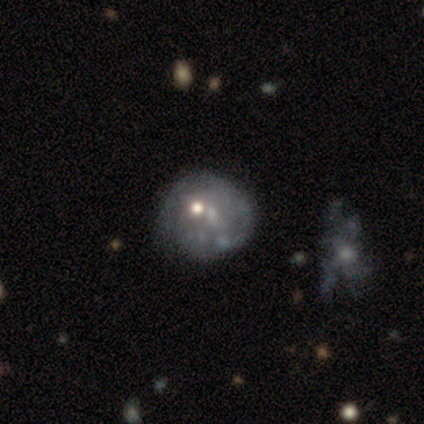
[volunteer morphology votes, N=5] Smooth or featured? 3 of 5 (60%) said featured or disk. Edge-on disk? 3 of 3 (100%) said no. Bar? 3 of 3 (100%) said no. Spiral arms? 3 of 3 (100%) said no. Bulge size? 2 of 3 (67%) said none. Merging? 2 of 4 (50%) said minor disturbance.